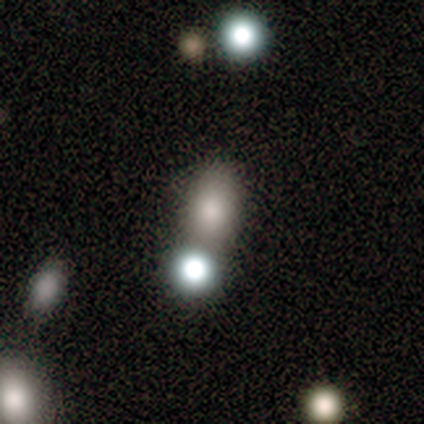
Q: Smooth or featured?
A: smooth (71%); runner-up: star or artifact (18%)
Q: How rounded?
A: in between (74%); runner-up: round (26%)
Q: Merging?
A: none (61%); runner-up: merger (26%)